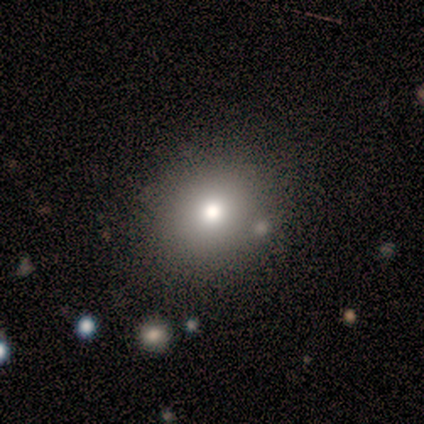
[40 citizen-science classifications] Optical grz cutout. It shows a smooth galaxy with no disk features (80%) that is round (84%). Merging: none (78%).